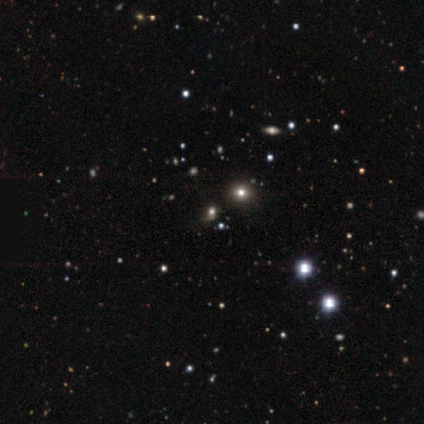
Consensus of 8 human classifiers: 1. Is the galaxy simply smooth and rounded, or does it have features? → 50% star or artifact, 25% smooth, 25% featured or disk.